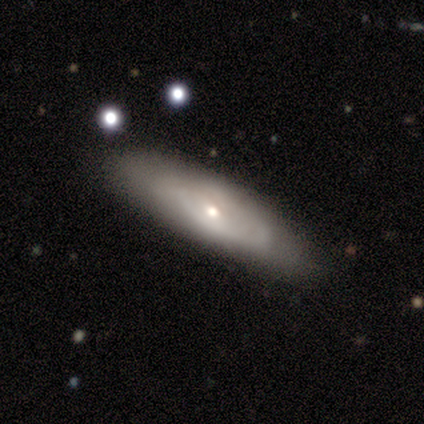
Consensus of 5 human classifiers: Volunteers were most divided on "edge-on bulge": rounded: 67%, none: 33%, boxy: 0%. More confident: smooth or featured — featured or disk (80%); merging — none (80%); edge-on disk — yes (75%).